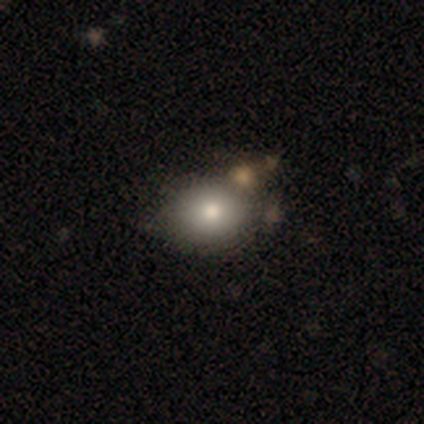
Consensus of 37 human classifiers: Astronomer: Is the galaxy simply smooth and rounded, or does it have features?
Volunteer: smooth — 89%.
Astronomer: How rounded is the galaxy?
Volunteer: round — 58% (runner-up: in between, 42%).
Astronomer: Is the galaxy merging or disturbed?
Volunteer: none — 47% (runner-up: merger, 24%).